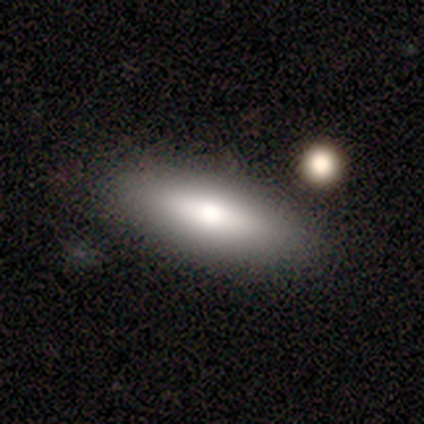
smooth_or_featured: smooth (p=0.75) [alt: star or artifact p=0.25]
how_rounded: in between (p=0.67) [alt: cigar-shaped p=0.33]
merging: minor disturbance (p=0.67) [alt: none p=0.33]